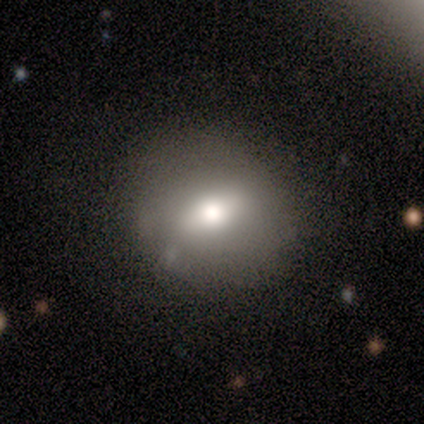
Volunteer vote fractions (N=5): Smooth or featured: smooth — 60% (featured or disk — 40%)
How rounded: round — 100%
Merging: none — 40% (tied with minor disturbance — 40%)